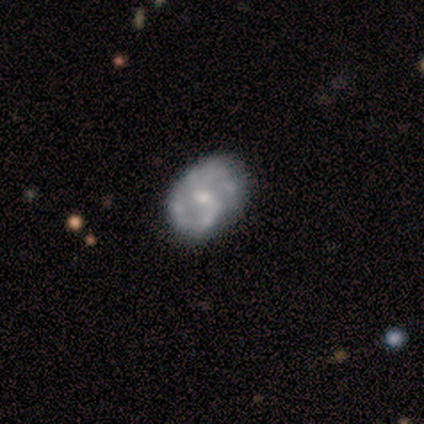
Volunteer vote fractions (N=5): This is clearly a featured or disk galaxy (100%). It is clearly not viewed edge-on (100%). Bar: clearly weak (80%). Spiral arm pattern: clearly yes (80%). Spiral arm count: possibly 2 (50%). Spiral winding: likely medium (75%). Central bulge: likely small (60%). Merging: likely none (60%).